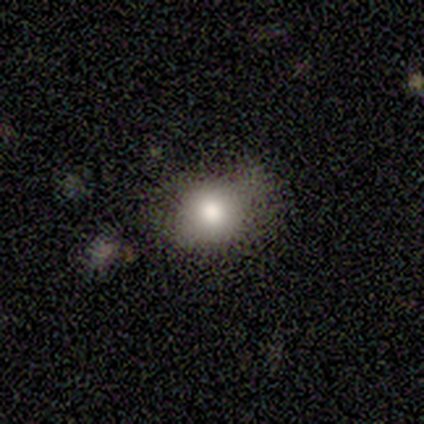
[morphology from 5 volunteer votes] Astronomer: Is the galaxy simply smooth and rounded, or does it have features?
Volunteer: smooth — 60% (runner-up: featured or disk, 40%).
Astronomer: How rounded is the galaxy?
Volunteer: round — 67%.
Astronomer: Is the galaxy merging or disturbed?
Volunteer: minor disturbance — 60% (runner-up: none, 40%).